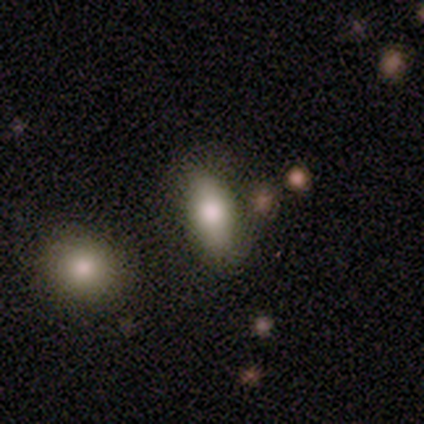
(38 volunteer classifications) smooth 76%, featured or disk 18%, star or artifact 5%. Down the decision tree: how rounded — in between (90%); merging — none (75%).